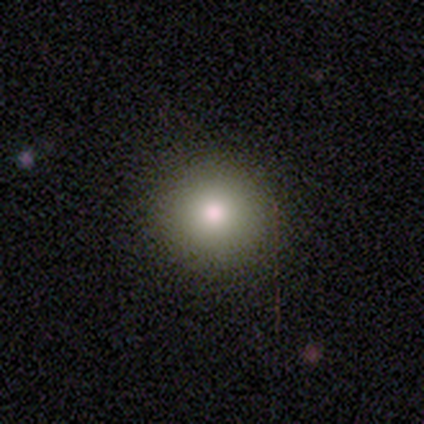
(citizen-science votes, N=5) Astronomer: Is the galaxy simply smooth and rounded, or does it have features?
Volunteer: smooth — 100%.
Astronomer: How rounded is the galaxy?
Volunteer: round — 100%.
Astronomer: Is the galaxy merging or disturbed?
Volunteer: none — 60% (runner-up: minor disturbance, 40%).